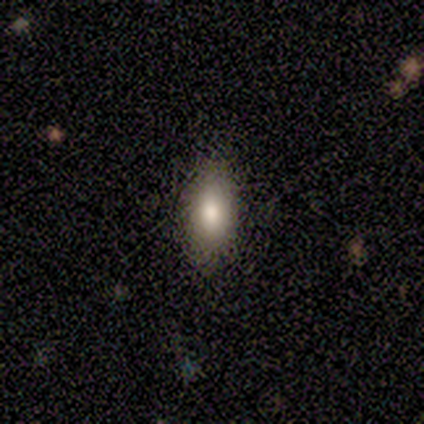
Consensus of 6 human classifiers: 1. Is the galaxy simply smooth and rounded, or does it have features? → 83% smooth, 17% featured or disk, 0% star or artifact.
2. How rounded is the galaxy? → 80% in between, 20% cigar-shaped, 0% round.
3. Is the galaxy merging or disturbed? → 83% none, 17% minor disturbance, 0% major disturbance, 0% merger.